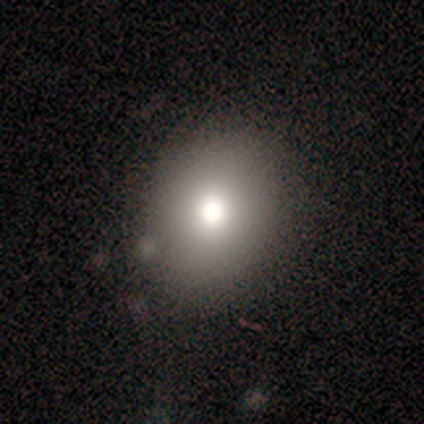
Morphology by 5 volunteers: Smooth or featured? smooth (60%)
How rounded? round (67%)
Merging? none (75%)